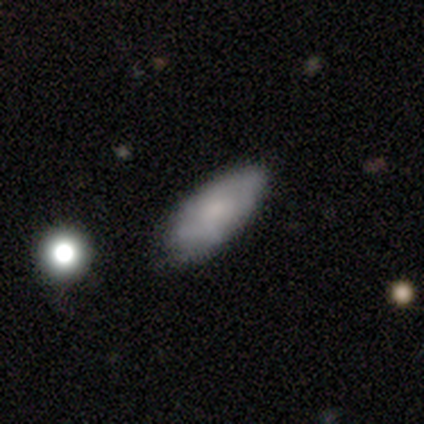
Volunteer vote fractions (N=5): This is clearly a smooth galaxy (80%). How rounded: clearly in between (100%). Merging: clearly none (80%).